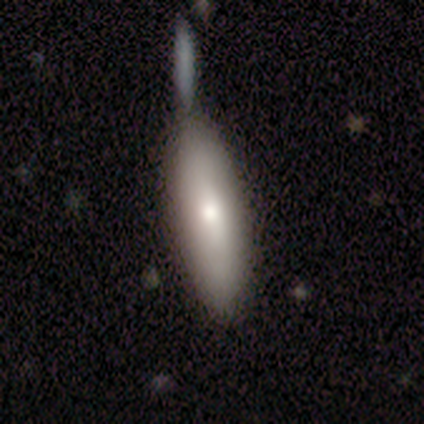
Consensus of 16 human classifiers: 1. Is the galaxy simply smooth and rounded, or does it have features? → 88% smooth, 6% featured or disk, 6% star or artifact.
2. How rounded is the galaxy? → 57% cigar-shaped, 43% in between, 0% round.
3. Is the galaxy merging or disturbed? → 47% none, 27% merger, 20% minor disturbance, 7% major disturbance.